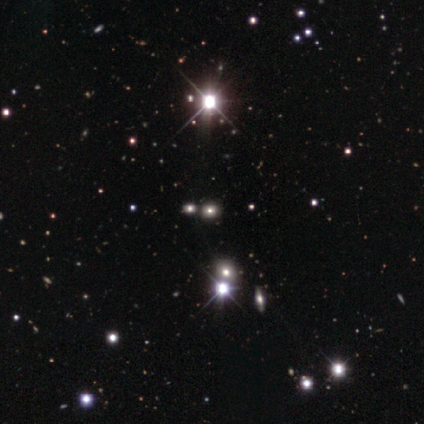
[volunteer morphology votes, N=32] Overall: star or artifact (56%; smooth 34%).